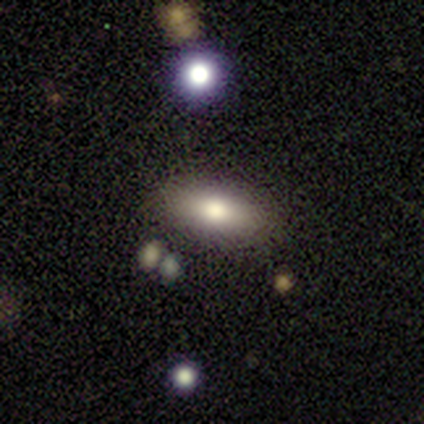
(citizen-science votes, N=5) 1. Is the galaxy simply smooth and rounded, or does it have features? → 80% smooth, 20% star or artifact, 0% featured or disk.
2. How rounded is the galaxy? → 100% in between, 0% round, 0% cigar-shaped.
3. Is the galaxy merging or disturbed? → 100% none, 0% minor disturbance, 0% major disturbance, 0% merger.